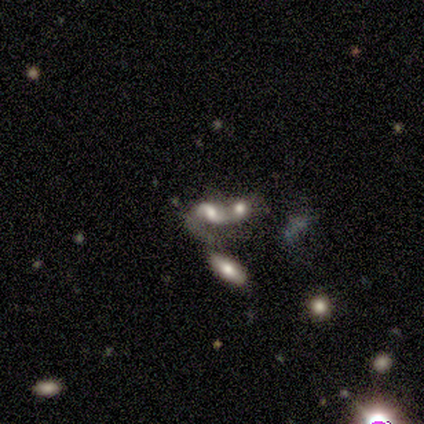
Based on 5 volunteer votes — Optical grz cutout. It shows a featured or disk galaxy (60%) with a weak bar (67%), 2 (100%) loose (100%) spiral arms (67%) and a small central bulge (67%). Merging: merger (100%).